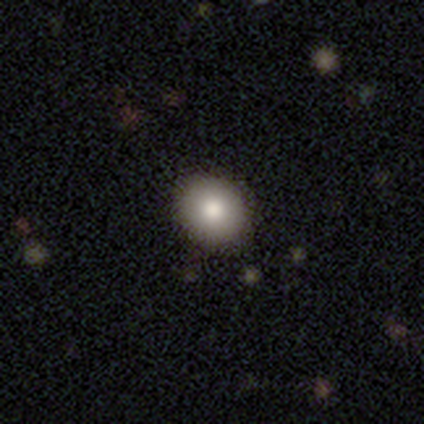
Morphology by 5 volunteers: Smooth or featured?
  - smooth: 80% *
  - star or artifact: 20%
  - featured or disk: 0%
How rounded?
  - round: 50% * (tied)
  - in between: 50% * (tied)
  - cigar-shaped: 0%
Merging?
  - none: 75% *
  - minor disturbance: 25%
  - major disturbance: 0%
  - merger: 0%